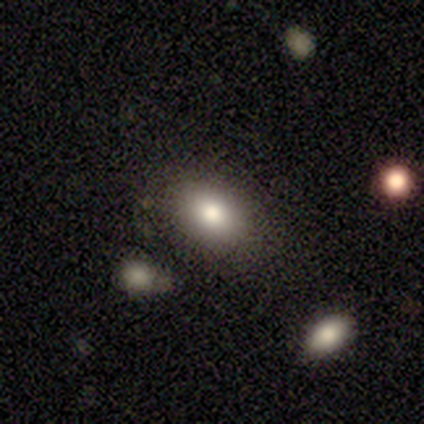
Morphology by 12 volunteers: Smooth or featured?
  - smooth: 92% *
  - star or artifact: 8%
  - featured or disk: 0%
How rounded?
  - in between: 73% *
  - round: 18%
  - cigar-shaped: 9%
Merging?
  - none: 73% *
  - minor disturbance: 9%
  - major disturbance: 9%
  - merger: 9%